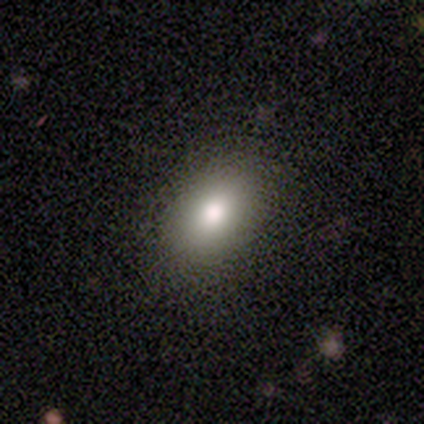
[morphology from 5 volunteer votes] Smooth or featured?
  - smooth: 80% *
  - featured or disk: 20%
  - star or artifact: 0%
How rounded?
  - in between: 100% *
  - round: 0%
  - cigar-shaped: 0%
Merging?
  - none: 80% *
  - minor disturbance: 20%
  - major disturbance: 0%
  - merger: 0%